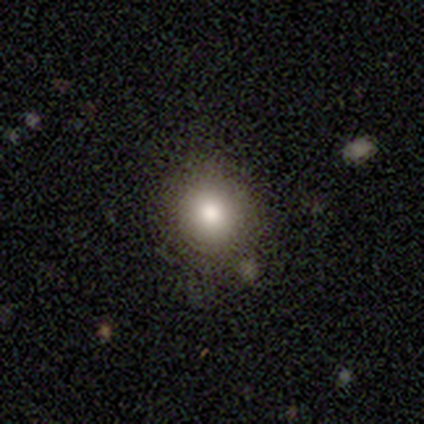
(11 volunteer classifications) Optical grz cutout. It shows a smooth galaxy with no disk features (82%) that is round (78%). Merging: none (80%).